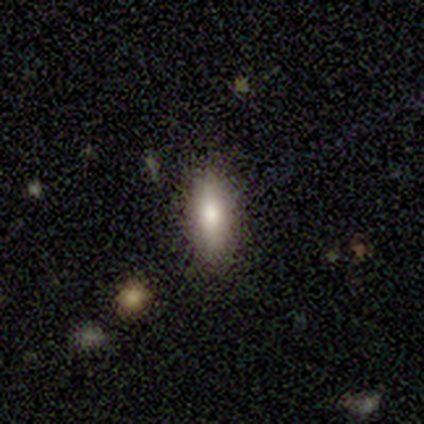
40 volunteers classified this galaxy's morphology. Overall: smooth (78%). How rounded: in between (61%; cigar-shaped 39%). Merging: none (87%).